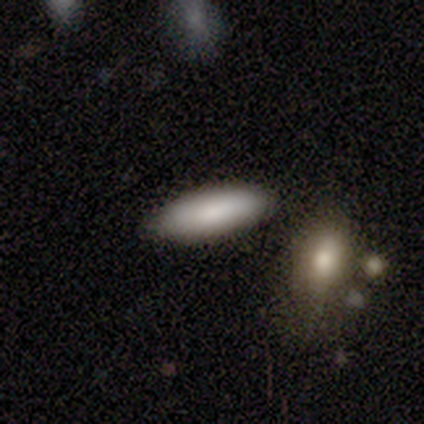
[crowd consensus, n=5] smooth-or-featured: smooth: 80% | featured or disk: 20% | star or artifact: 0%
  how-rounded: in between: 75% | cigar-shaped: 25% | round: 0%
  merging: none: 100% | minor disturbance: 0% | major disturbance: 0% | merger: 0%